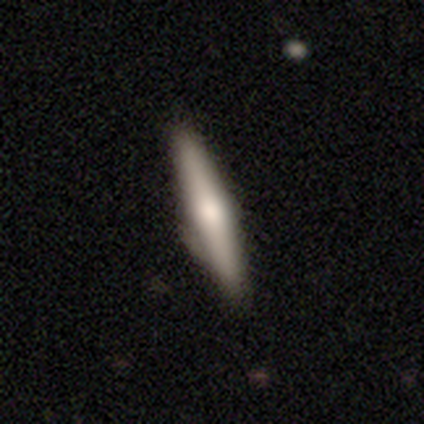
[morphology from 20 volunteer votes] Volunteers were most divided on "merging": none: 53%, minor disturbance: 42%, major disturbance: 5%, merger: 0%. More confident: edge-on bulge — rounded (100%); edge-on disk — yes (83%); smooth or featured — featured or disk (60%).